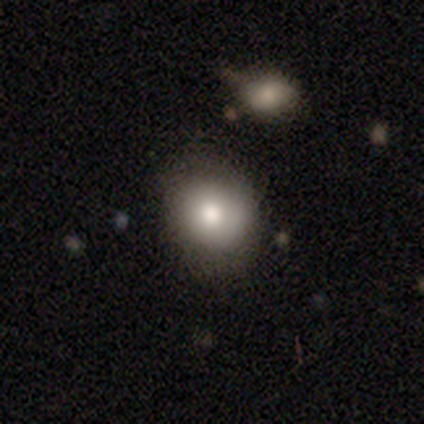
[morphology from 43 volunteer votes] Smooth or featured? smooth (79%)
How rounded? round (65%)
Merging? none (68%)